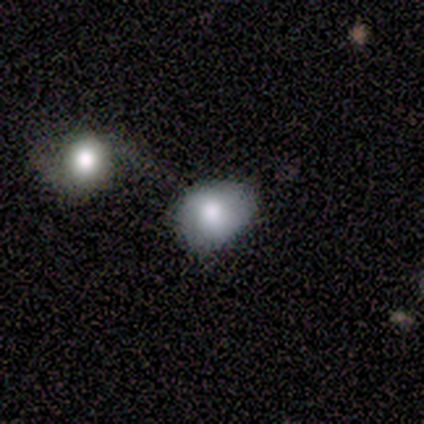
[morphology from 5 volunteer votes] Q: Smooth or featured?
A: smooth (100%)
Q: How rounded?
A: round (60%); runner-up: in between (40%)
Q: Merging?
A: minor disturbance (40%); runner-up: none (20%)